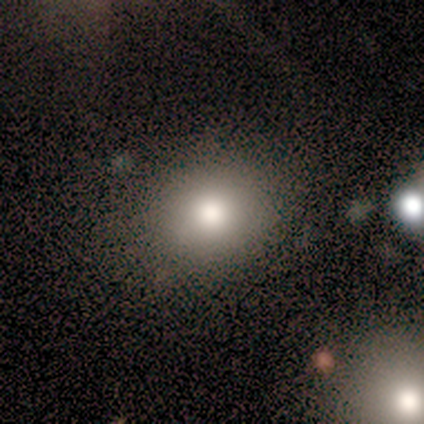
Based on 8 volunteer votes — This appears to be a smooth galaxy with no disk features (88%) that is round (71%). Merging: none (75%).